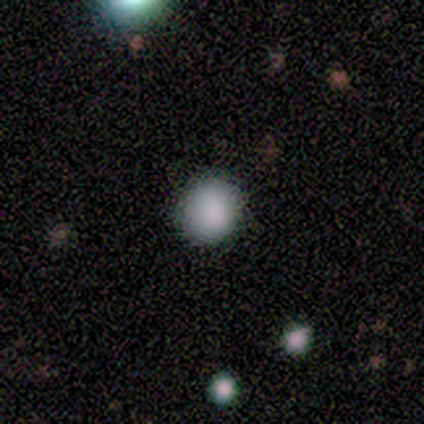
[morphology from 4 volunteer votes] This appears to be a smooth galaxy with no disk features (100%) that is round (100%). Merging: none (100%).